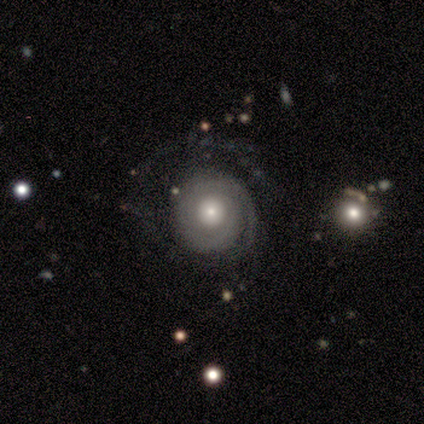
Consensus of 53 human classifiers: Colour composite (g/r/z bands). It shows a featured or disk galaxy (72%) with no bar (97%), tight (73%) spiral arms (87%) and a small central bulge (55%). Merging: none (57%).